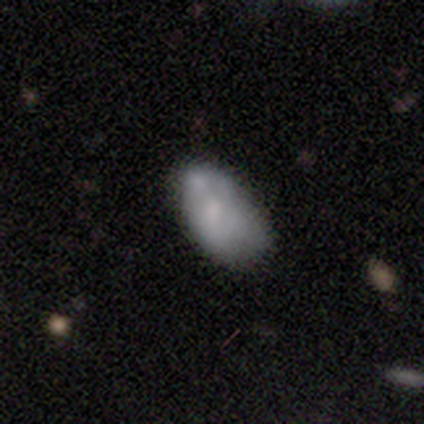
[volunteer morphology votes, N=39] Smooth or featured? 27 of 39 (69%) said smooth. How rounded? 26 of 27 (96%) said in between. Merging? 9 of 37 (24%, tied with minor disturbance) said none.